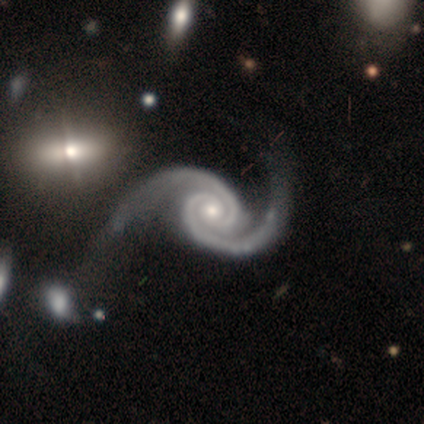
Smooth or featured? 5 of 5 (100%) said featured or disk. Edge-on disk? 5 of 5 (100%) said no. Bar? 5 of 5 (100%) said no. Spiral arms? 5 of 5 (100%) said yes. Spiral winding? 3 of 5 (60%) said medium. Spiral arm count? 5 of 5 (100%) said 2. Bulge size? 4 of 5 (80%) said moderate. Merging? 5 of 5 (100%) said none.